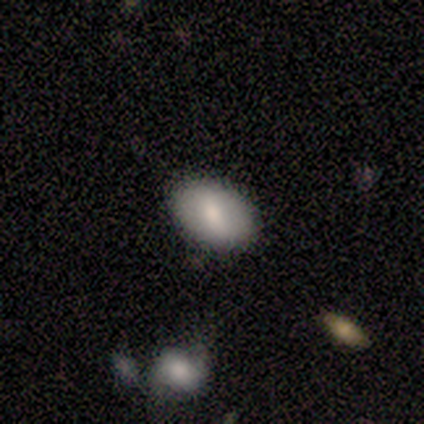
Volunteers were most divided on "merging": none: 50%, minor disturbance: 25%, major disturbance: 25%, merger: 0%. More confident: smooth or featured — smooth (100%); how rounded — in between (75%).